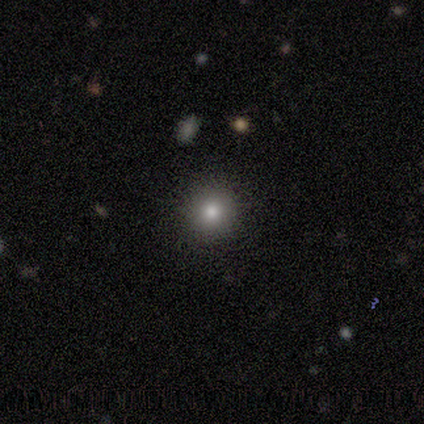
Smooth or featured: smooth — 80% (featured or disk — 20%)
How rounded: round — 100%
Merging: none — 100%